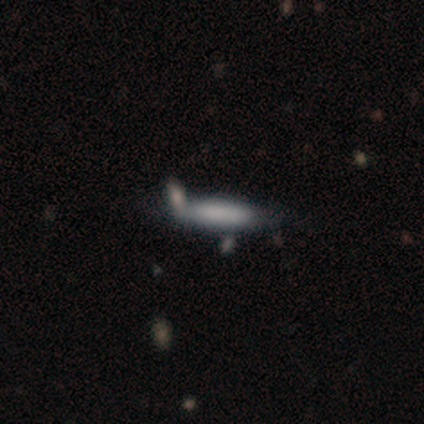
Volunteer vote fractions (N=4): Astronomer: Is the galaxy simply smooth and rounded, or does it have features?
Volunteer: smooth — 100%.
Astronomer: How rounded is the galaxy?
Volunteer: cigar-shaped — 100%.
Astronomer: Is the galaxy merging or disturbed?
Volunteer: none — 50%.